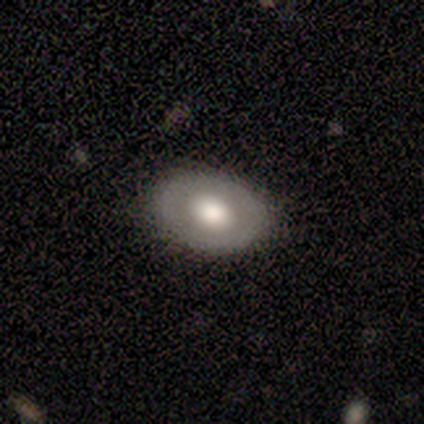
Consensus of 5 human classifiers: Smooth or featured? smooth (100%)
How rounded? in between (60%)
Merging? none (100%)